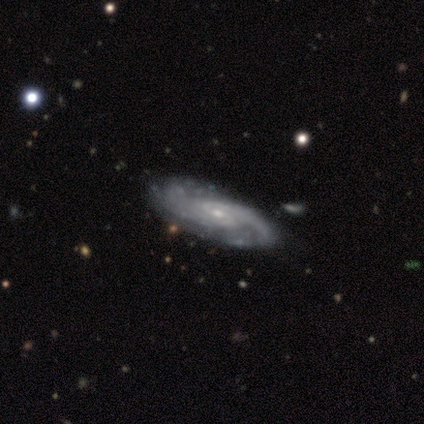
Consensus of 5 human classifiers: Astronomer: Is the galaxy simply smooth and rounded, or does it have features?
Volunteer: featured or disk — 80%.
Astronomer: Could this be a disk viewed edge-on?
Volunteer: no — 75%.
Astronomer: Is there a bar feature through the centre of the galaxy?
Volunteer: no — 67%.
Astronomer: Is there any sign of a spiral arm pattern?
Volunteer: yes — 100%.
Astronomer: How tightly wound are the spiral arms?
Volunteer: medium — 67%.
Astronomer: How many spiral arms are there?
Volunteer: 2 — 33%, tied with more than 4 and can't tell at 33%.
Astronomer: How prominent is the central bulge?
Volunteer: moderate — 67%.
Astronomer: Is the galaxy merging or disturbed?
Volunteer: none — 80%.